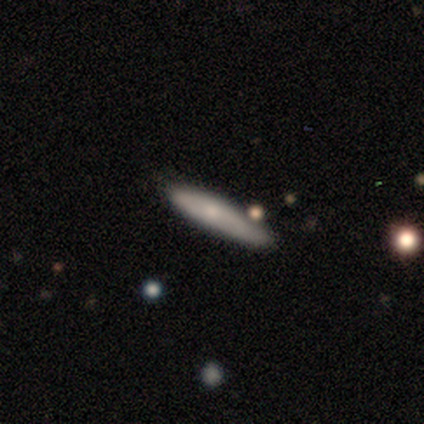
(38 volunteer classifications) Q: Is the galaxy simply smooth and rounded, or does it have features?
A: smooth — 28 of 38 (74%).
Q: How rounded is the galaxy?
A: cigar-shaped — 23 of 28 (82%).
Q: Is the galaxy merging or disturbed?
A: none — 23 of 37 (62%).